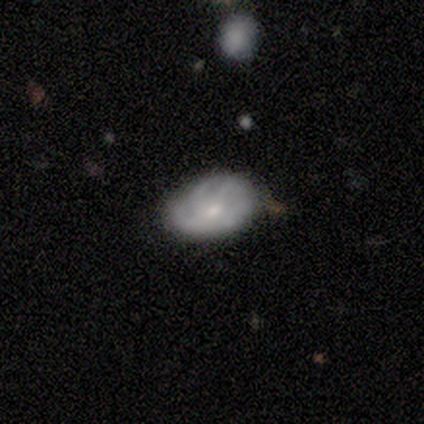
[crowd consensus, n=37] Smooth or featured? featured or disk (68%)
Edge-on disk? no (100%)
Bar? no (80%)
Spiral arms? yes (80%)
Spiral winding? tight (50%)
Spiral arm count? 3 (35%)
Bulge size? small (60%)
Merging? none (77%)